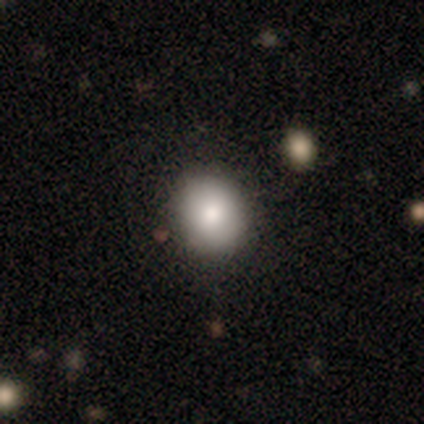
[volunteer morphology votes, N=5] type=smooth (60%); roundness=round (67%); merging=none (80%).